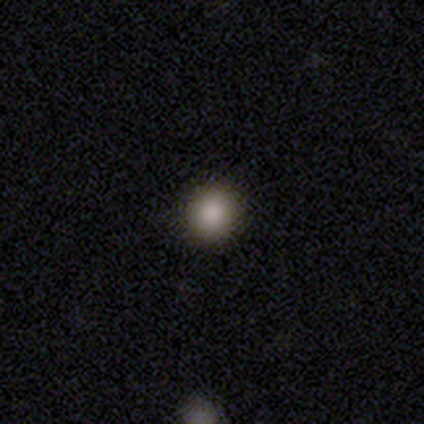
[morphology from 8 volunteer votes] smooth 88%, featured or disk 12%, star or artifact 0%. Down the decision tree: how rounded — round (86%); merging — none (88%).